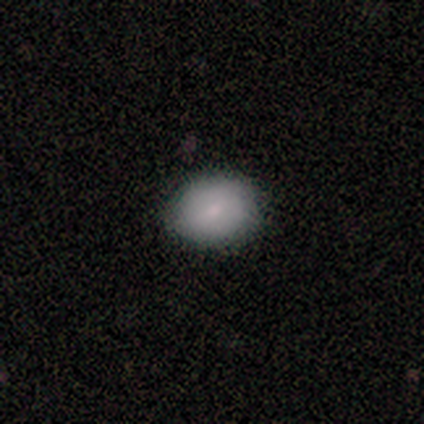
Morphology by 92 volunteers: This appears to be a smooth galaxy with no disk features (82%) that is round (51%). Merging: none (88%).